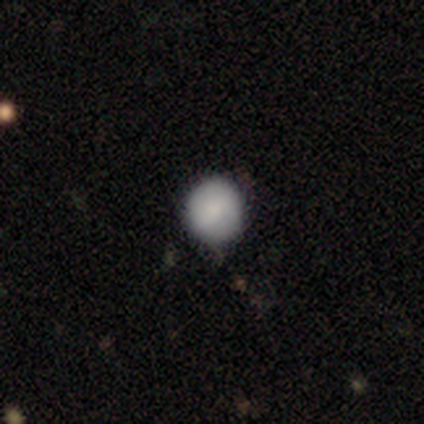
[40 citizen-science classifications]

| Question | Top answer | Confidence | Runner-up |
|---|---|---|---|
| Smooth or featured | smooth | 75% | featured or disk (18%) |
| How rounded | round | 97% | in between (3%) |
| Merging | none | 62% | minor disturbance (8%) |